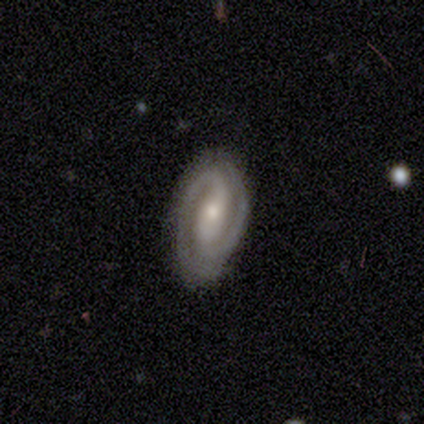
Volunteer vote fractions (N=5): Smooth or featured? featured or disk (100%)
Edge-on disk? no (100%)
Bar? weak (80%)
Spiral arms? yes (60%)
Spiral winding? medium (100%)
Spiral arm count? 2 (100%)
Bulge size? small (60%)
Merging? none (60%)